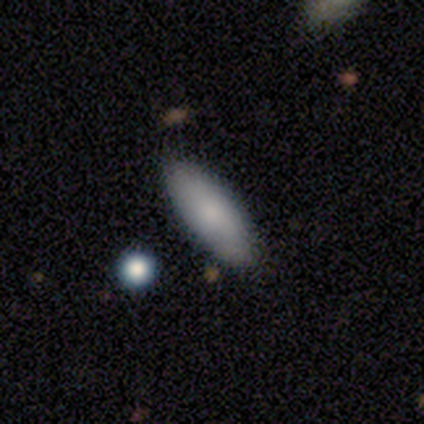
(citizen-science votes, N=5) Smooth or featured: smooth — 80% (star or artifact — 20%)
How rounded: in between — 100%
Merging: none — 100%